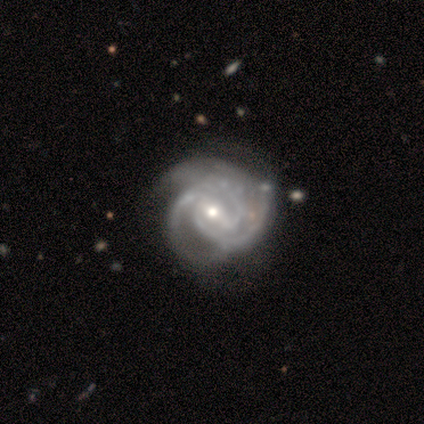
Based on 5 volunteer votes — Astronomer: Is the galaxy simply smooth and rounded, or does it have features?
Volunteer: featured or disk — 100%.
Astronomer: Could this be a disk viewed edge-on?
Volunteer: no — 100%.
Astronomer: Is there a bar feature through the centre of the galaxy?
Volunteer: weak — 40%, tied with no at 40%.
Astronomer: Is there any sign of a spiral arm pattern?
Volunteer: yes — 100%.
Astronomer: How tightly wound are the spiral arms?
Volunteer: tight — 80%.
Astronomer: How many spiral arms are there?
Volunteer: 3 — 80%.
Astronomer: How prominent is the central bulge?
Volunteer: moderate — 60% (runner-up: small, 40%).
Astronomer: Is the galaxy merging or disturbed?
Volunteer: none — 100%.